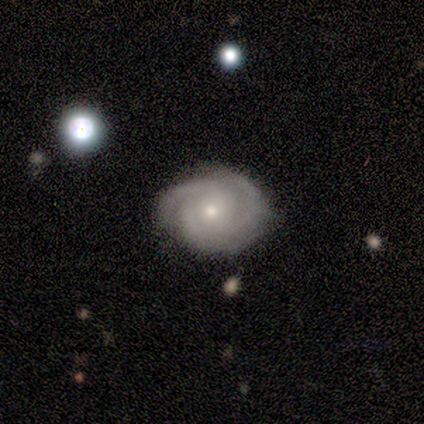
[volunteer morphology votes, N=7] Smooth or featured? 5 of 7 (71%) said featured or disk. Edge-on disk? 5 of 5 (100%) said no. Bar? 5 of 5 (100%) said no. Spiral arms? 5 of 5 (100%) said yes. Spiral winding? 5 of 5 (100%) said tight. Spiral arm count? 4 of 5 (80%) said 3. Bulge size? 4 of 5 (80%) said small. Merging? 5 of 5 (100%) said none.